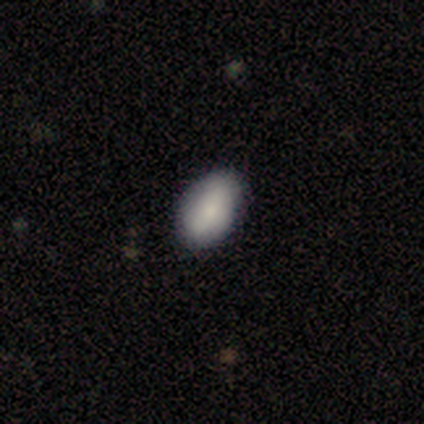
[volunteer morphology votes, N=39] smooth-or-featured: smooth: 87% | featured or disk: 8% | star or artifact: 5%
  how-rounded: in between: 85% | round: 15% | cigar-shaped: 0%
  merging: none: 86% | minor disturbance: 11% | merger: 3% | major disturbance: 0%